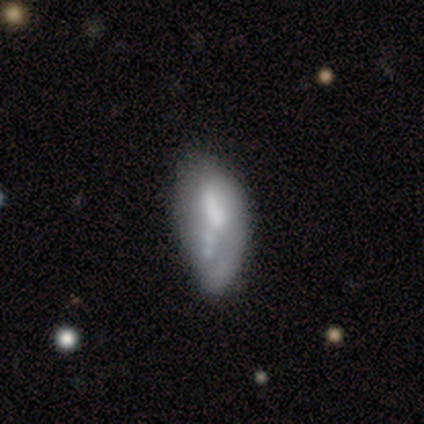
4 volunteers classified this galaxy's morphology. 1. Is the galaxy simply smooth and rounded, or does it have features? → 50% featured or disk, 25% smooth, 25% star or artifact.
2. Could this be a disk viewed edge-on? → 100% no, 0% yes.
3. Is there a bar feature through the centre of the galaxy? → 50% weak (tied), 50% no (tied), 0% strong.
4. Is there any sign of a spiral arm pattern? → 100% no, 0% yes.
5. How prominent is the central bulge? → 50% large (tied), 50% small (tied), 0% dominant, 0% moderate, 0% none.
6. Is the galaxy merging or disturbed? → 67% minor disturbance, 33% none, 0% major disturbance, 0% merger.